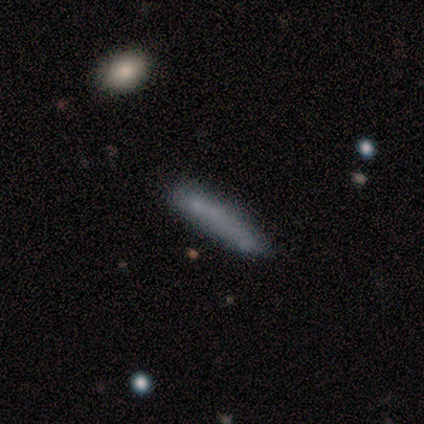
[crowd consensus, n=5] Smooth or featured? smooth (100%)
How rounded? cigar-shaped (100%)
Merging? none (60%)